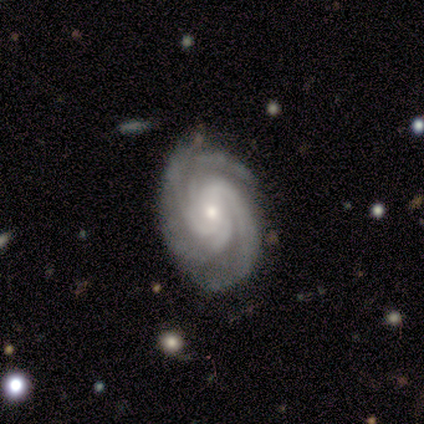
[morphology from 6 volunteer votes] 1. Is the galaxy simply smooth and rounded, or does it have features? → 83% featured or disk, 17% star or artifact, 0% smooth.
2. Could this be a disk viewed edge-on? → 100% no, 0% yes.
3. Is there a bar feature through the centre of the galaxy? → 60% no, 40% weak, 0% strong.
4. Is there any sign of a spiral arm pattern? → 100% yes, 0% no.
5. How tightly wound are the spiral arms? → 40% tight (tied), 40% medium (tied), 20% loose.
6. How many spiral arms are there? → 20% 1 (tied), 20% 3 (tied), 20% 4 (tied), 20% more than 4 (tied), 20% can't tell (tied), 0% 2.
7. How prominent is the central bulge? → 100% small, 0% dominant, 0% large, 0% moderate, 0% none.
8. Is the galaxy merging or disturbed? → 80% none, 20% minor disturbance, 0% major disturbance, 0% merger.